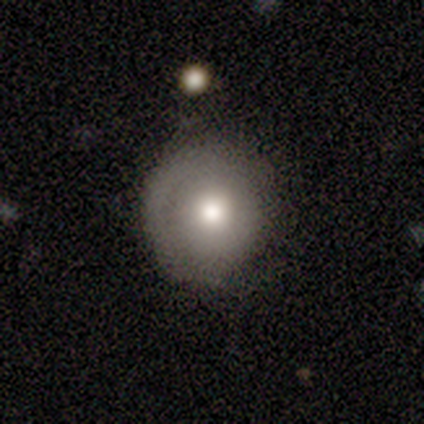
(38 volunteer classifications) A smooth galaxy with no disk features (68%) that is round (100%). Merging: none (68%).